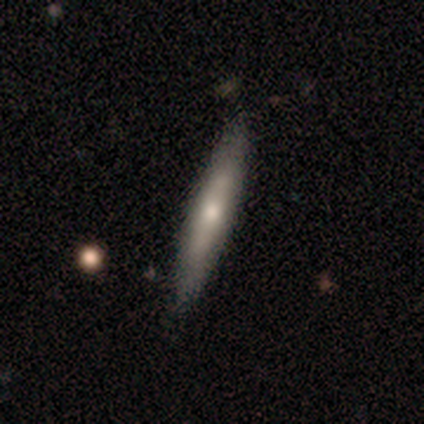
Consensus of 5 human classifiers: Volunteers were most divided on "smooth or featured": smooth: 60%, featured or disk: 40%, star or artifact: 0%. More confident: how rounded — cigar-shaped (100%); merging — none (80%).